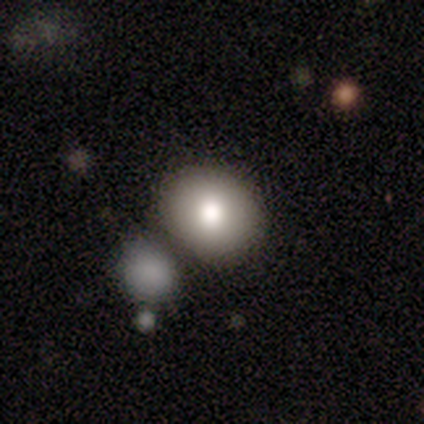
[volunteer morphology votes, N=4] Volunteers were most divided on "merging" (2-way tie): none: 50%, minor disturbance: 50%, major disturbance: 0%, merger: 0%. More confident: smooth or featured — smooth (100%); how rounded — round (100%).